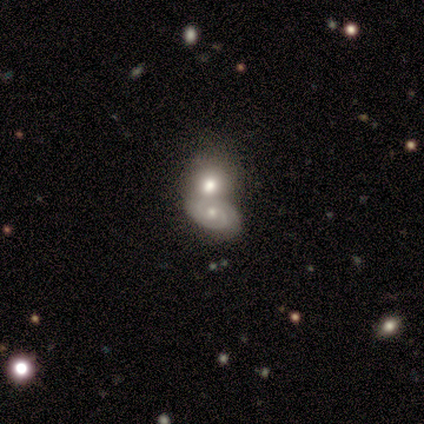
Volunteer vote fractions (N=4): Smooth or featured: featured or disk — 50% (smooth — 25%)
Edge-on disk: no — 100%
Bar: no — 100%
Spiral arms: yes — 100%
Spiral winding: tight — 100%
Spiral arm count: 2 — 100%
Bulge size: small — 100%
Merging: none — 67% (merger — 33%)